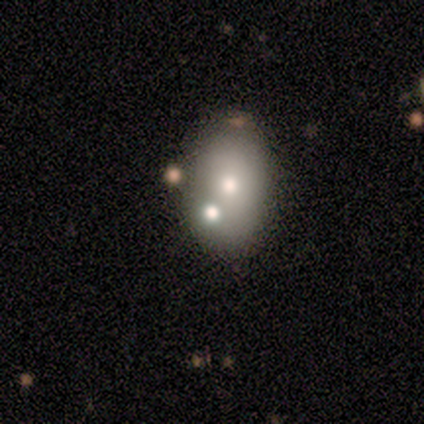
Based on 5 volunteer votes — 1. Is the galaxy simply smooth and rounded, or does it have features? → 60% smooth, 40% star or artifact, 0% featured or disk.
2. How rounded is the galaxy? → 67% in between, 33% round, 0% cigar-shaped.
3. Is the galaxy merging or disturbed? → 67% merger, 33% minor disturbance, 0% none, 0% major disturbance.